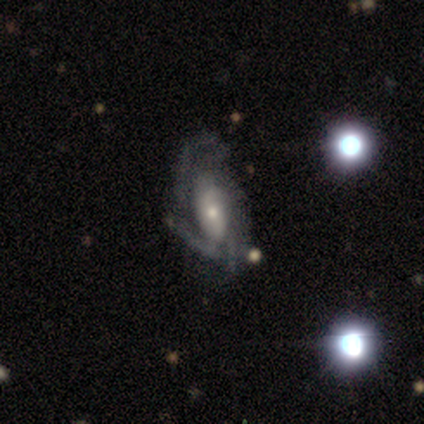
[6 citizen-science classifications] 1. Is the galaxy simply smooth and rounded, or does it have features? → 100% featured or disk, 0% smooth, 0% star or artifact.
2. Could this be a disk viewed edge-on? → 83% no, 17% yes.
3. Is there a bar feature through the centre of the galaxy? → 60% no, 40% weak, 0% strong.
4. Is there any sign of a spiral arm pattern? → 80% yes, 20% no.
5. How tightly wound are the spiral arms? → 75% medium, 25% tight, 0% loose.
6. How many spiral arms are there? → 50% 2, 25% 3, 25% can't tell, 0% 1, 0% 4, 0% more than 4.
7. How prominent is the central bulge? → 60% small, 40% moderate, 0% dominant, 0% large, 0% none.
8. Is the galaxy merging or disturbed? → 67% none, 33% minor disturbance, 0% major disturbance, 0% merger.